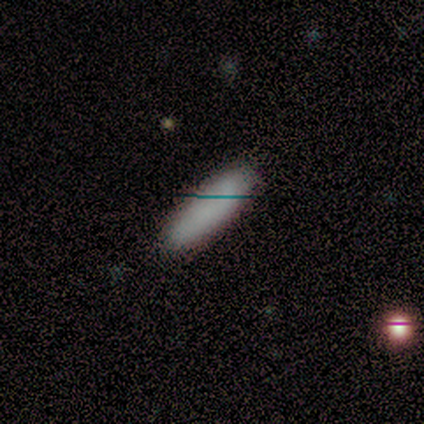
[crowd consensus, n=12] smooth-or-featured: smooth: 92% | star or artifact: 8% | featured or disk: 0%
  how-rounded: cigar-shaped: 64% | in between: 36% | round: 0%
  merging: none: 91% | minor disturbance: 9% | major disturbance: 0% | merger: 0%